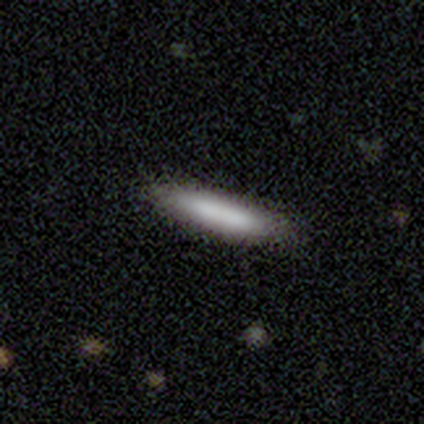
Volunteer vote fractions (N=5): Volunteers were most divided on "smooth or featured": smooth: 80%, star or artifact: 20%, featured or disk: 0%. More confident: how rounded — cigar-shaped (100%); merging — none (100%).